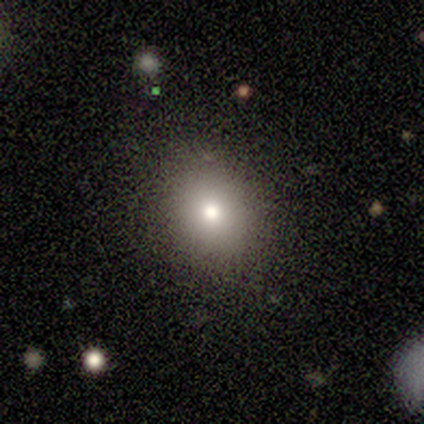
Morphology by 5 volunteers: Q: Smooth or featured?
A: smooth (60%); runner-up: featured or disk (20%)
Q: How rounded?
A: in between (67%); runner-up: round (33%)
Q: Merging?
A: none (100%)